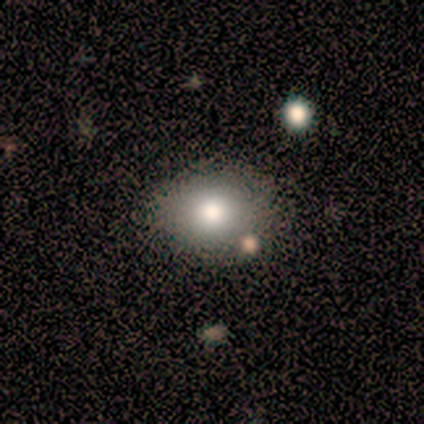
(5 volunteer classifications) Smooth or featured? smooth (100%)
How rounded? in between (80%)
Merging? none (100%)